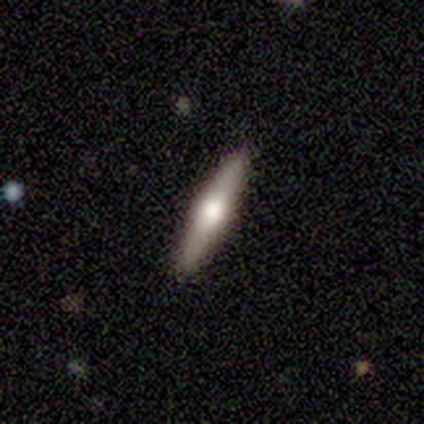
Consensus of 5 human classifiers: Smooth or featured?
  - featured or disk: 80% *
  - smooth: 20%
  - star or artifact: 0%
Edge-on disk?
  - yes: 100% *
  - no: 0%
Edge-on bulge?
  - rounded: 100% *
  - boxy: 0%
  - none: 0%
Merging?
  - none: 100% *
  - minor disturbance: 0%
  - major disturbance: 0%
  - merger: 0%